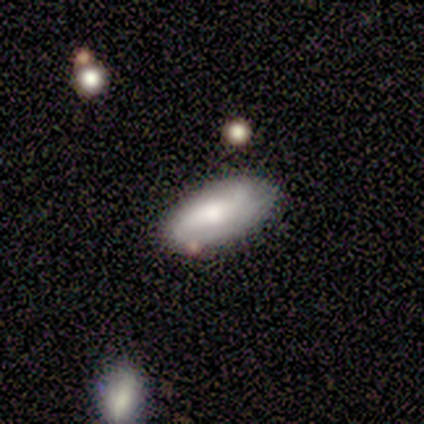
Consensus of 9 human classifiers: Smooth or featured: smooth — 56% (featured or disk — 44%)
How rounded: in between — 100%
Merging: none — 78% (minor disturbance — 11%)